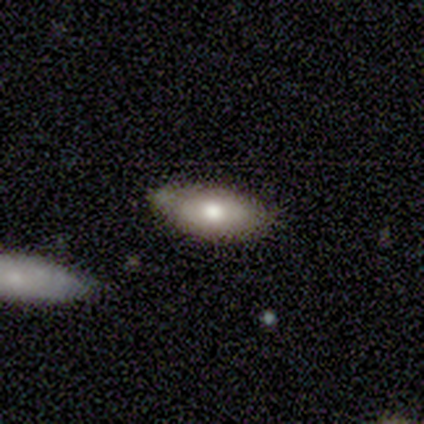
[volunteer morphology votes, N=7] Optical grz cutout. It shows a smooth galaxy with no disk features (86%) that is in between round and cigar-shaped (83%). Merging: none (71%).